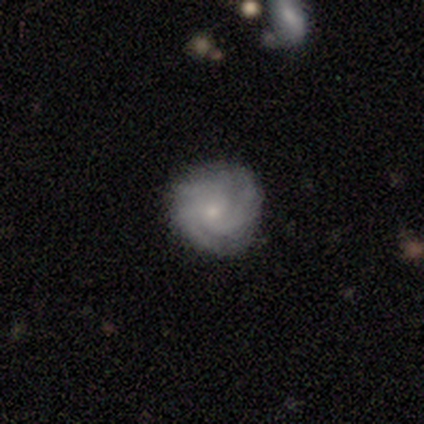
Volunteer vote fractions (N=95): Volunteers were most divided on "bulge size": small: 69%, moderate: 28%, large: 1%, none: 1%, dominant: 0%. More confident: edge-on disk — no (97%); spiral arms — yes (94%); bar — no (87%); smooth or featured — featured or disk (73%); merging — none (71%); spiral winding — tight (70%); spiral arm count — 3 (59%).